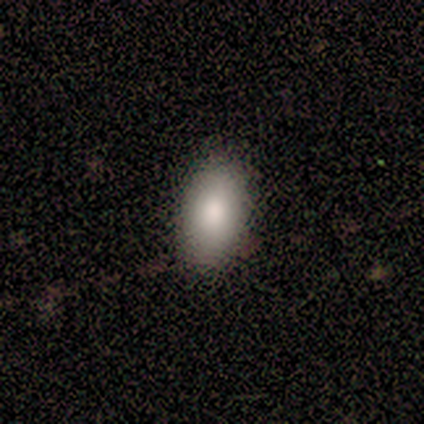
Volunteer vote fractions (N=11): smooth_or_featured: smooth (p=0.91) [alt: featured or disk p=0.09]
how_rounded: in between (p=0.90) [alt: round p=0.10]
merging: none (p=0.91) [alt: minor disturbance p=0.09]